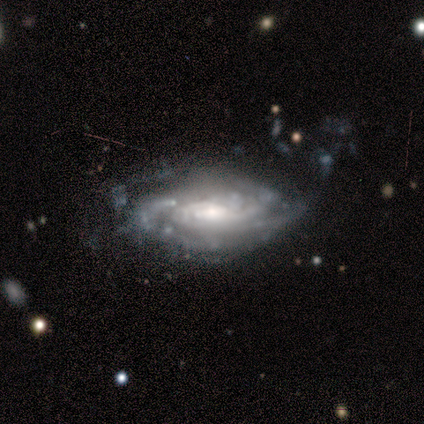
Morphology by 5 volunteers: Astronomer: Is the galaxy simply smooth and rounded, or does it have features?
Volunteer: featured or disk — 100%.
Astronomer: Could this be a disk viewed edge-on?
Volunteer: no — 100%.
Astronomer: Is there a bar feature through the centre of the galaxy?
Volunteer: weak — 60% (runner-up: no, 40%).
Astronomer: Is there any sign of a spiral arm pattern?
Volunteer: yes — 80%.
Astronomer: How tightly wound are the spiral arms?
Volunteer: tight — 100%.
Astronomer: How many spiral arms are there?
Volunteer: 2 — 50%.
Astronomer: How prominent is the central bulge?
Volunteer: moderate — 40% (runner-up: large, 20%).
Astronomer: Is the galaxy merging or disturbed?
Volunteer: none — 60%.